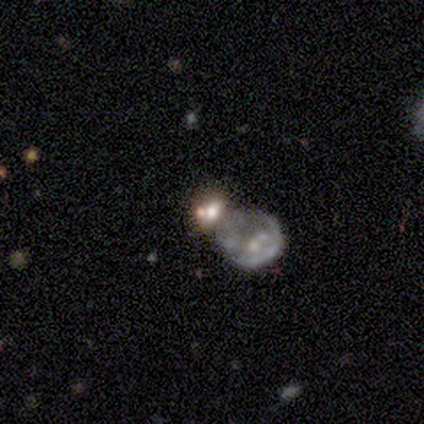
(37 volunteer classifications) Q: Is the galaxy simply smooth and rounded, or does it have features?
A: featured or disk — 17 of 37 (46%).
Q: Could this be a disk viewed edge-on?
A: no — 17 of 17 (100%).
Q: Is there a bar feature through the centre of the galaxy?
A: no — 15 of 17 (88%).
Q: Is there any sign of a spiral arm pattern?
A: no — 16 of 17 (94%).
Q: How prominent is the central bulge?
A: none — 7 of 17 (41%).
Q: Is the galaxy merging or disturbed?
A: merger — 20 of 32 (62%).